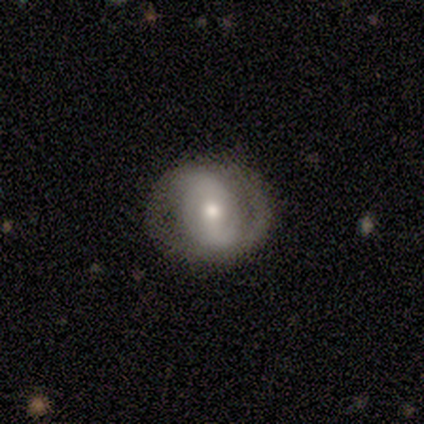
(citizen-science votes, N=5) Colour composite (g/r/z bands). It shows a featured or disk galaxy (100%) with a strong bar (40%, tied with weak), 2 (100%) medium (67%) spiral arms (60%) and a moderate central bulge (80%). Merging: none (80%).